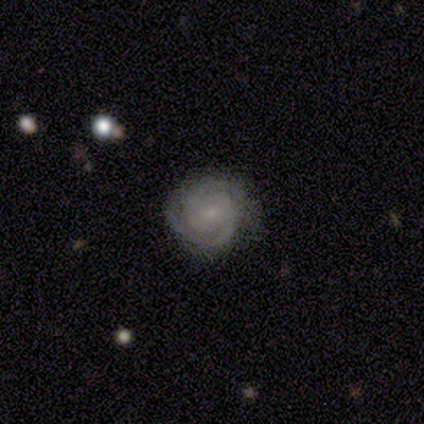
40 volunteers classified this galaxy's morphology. This is clearly a featured or disk galaxy (85%). It is clearly not viewed edge-on (97%). Bar: likely no (70%). Spiral arm pattern: clearly yes (100%). Spiral arm count: likely 2 (76%). Spiral winding: clearly tight (85%). Central bulge: likely small (76%). Merging: likely none (74%).